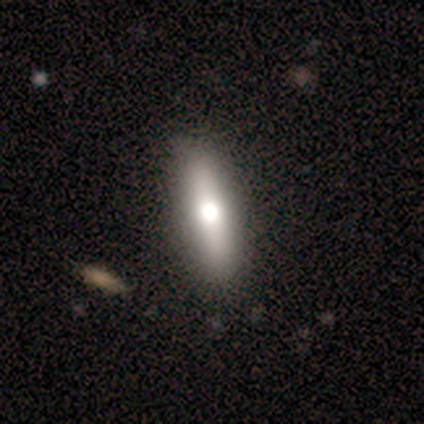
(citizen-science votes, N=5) This is likely a smooth galaxy (60%). How rounded: clearly cigar-shaped (100%). Merging: clearly none (100%).